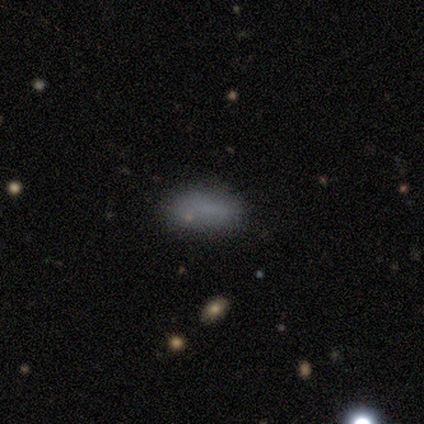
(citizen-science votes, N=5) Volunteers were most divided on "merging": none: 80%, minor disturbance: 20%, major disturbance: 0%, merger: 0%. More confident: smooth or featured — smooth (100%); how rounded — in between (100%).